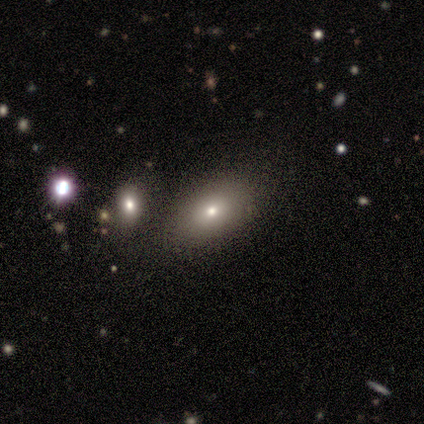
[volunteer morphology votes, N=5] smooth_or_featured: smooth (p=0.80) [alt: star or artifact p=0.20]
how_rounded: in between (p=1.00)
merging: none (p=1.00)